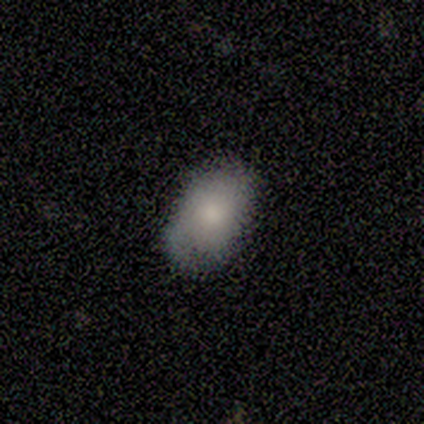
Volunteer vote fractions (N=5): smooth-or-featured: smooth: 80% | featured or disk: 20% | star or artifact: 0%
  how-rounded: in between: 100% | round: 0% | cigar-shaped: 0%
  merging: none: 60% | minor disturbance: 40% | major disturbance: 0% | merger: 0%